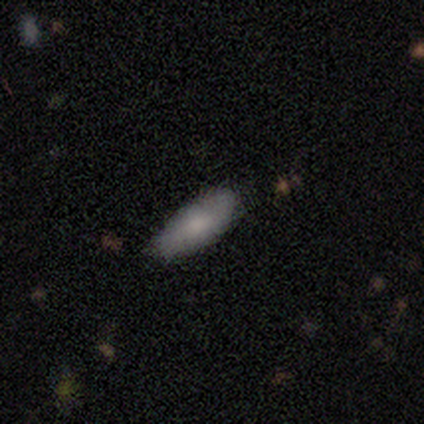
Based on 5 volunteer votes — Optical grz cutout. It shows a smooth galaxy with no disk features (60%) that is cigar-shaped (67%). Merging: none (100%).